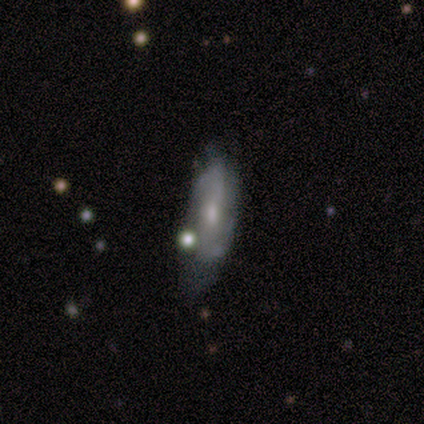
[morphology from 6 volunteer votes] A featured or disk galaxy (67%) viewed edge-on (50%, tied with no) with a boxy central bulge (50%, tied with rounded).

Vote fractions:
- Smooth or featured? featured or disk: 67% / smooth: 33% / star or artifact: 0%
- Edge-on disk? yes: 50% (tied) / no: 50% (tied)
- Edge-on bulge? boxy: 50% (tied) / rounded: 50% (tied) / none: 0%
- Merging? none: 83% / minor disturbance: 17% / major disturbance: 0% / merger: 0%